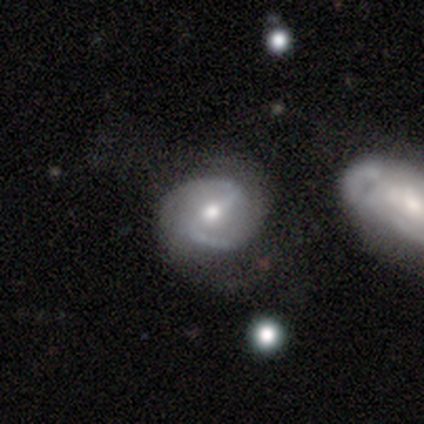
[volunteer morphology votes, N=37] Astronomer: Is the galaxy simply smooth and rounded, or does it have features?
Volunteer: featured or disk — 84%.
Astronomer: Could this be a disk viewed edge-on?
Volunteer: no — 97%.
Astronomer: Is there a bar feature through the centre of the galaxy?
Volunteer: strong — 47% (runner-up: weak, 43%).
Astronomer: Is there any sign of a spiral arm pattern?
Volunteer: yes — 97%.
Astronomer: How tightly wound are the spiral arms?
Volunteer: medium — 59%.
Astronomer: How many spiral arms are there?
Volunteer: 2 — 86%.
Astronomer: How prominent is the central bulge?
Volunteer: moderate — 90%.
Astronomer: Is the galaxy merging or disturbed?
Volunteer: none — 68%.